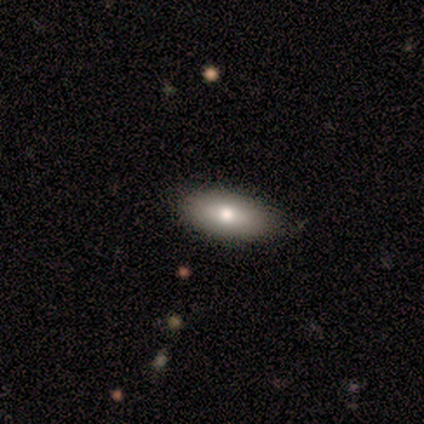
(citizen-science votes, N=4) smooth-or-featured: smooth: 50% (tied) | featured or disk: 50% (tied) | star or artifact: 0%
  how-rounded: in between: 100% | round: 0% | cigar-shaped: 0%
  merging: none: 100% | minor disturbance: 0% | major disturbance: 0% | merger: 0%